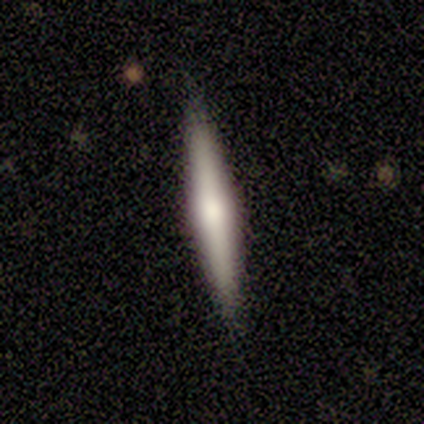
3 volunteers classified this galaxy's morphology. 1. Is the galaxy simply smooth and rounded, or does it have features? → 67% featured or disk, 33% star or artifact, 0% smooth.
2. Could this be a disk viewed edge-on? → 100% yes, 0% no.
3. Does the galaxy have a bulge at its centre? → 100% rounded, 0% boxy, 0% none.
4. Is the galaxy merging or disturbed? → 100% none, 0% minor disturbance, 0% major disturbance, 0% merger.